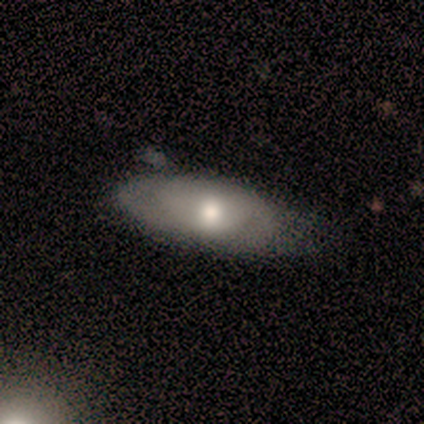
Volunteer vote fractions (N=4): Overall: smooth (100%). How rounded: in between (100%). Merging: none (50%, tied with minor disturbance).